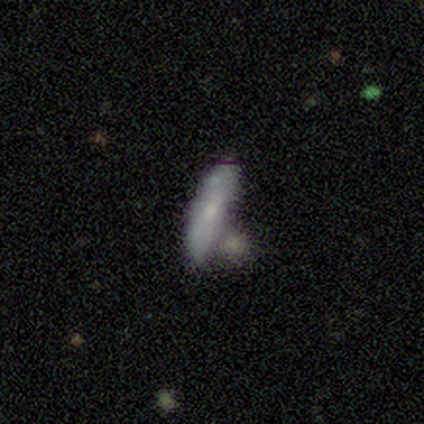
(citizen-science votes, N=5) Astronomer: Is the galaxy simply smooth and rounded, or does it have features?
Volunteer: smooth — 80%.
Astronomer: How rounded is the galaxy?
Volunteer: cigar-shaped — 100%.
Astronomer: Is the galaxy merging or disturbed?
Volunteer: none — 60% (runner-up: merger, 40%).